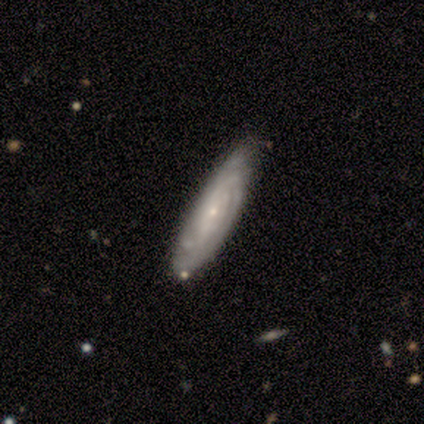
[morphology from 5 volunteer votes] Smooth or featured?
  - featured or disk: 80% *
  - smooth: 20%
  - star or artifact: 0%
Edge-on disk?
  - no: 100% *
  - yes: 0%
Bar?
  - no: 75% *
  - weak: 25%
  - strong: 0%
Spiral arms?
  - yes: 100% *
  - no: 0%
Spiral winding?
  - tight: 75% *
  - medium: 25%
  - loose: 0%
Spiral arm count?
  - can't tell: 50% *
  - 4: 25%
  - more than 4: 25%
  - 1: 0%
  - 2: 0%
  - 3: 0%
Bulge size?
  - small: 100% *
  - dominant: 0%
  - large: 0%
  - moderate: 0%
  - none: 0%
Merging?
  - none: 100% *
  - minor disturbance: 0%
  - major disturbance: 0%
  - merger: 0%